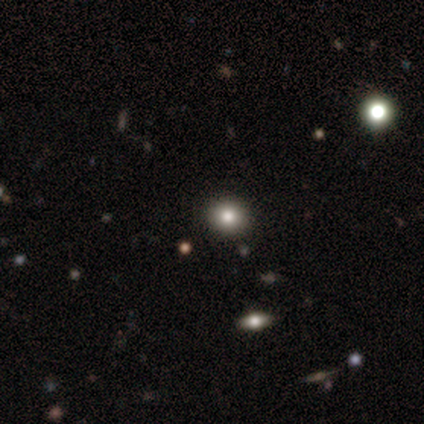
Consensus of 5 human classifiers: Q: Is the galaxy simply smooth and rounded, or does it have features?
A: star or artifact — 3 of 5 (60%).